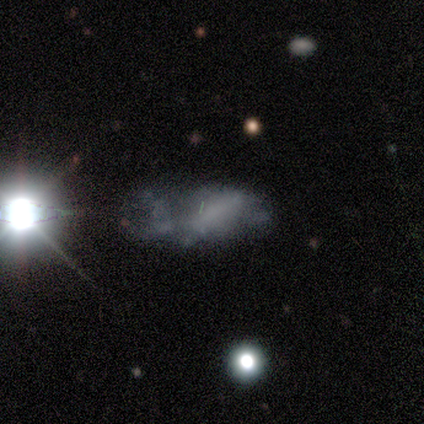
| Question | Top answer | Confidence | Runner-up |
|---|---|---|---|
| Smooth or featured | featured or disk | 100% | — |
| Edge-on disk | no | 67% | yes (33%) |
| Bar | no | 100% | — |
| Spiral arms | no | 100% | — |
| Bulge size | none | 100% | — |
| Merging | none | 33% | tied: major disturbance (33%), merger (33%) |